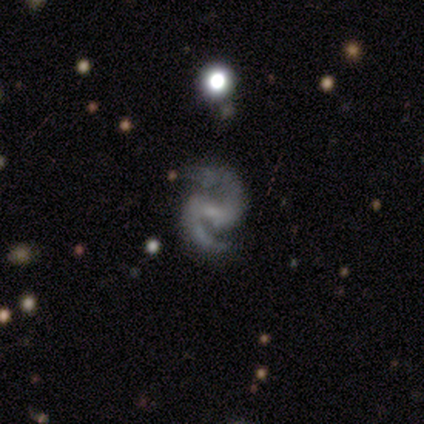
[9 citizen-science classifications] A featured or disk galaxy (100%) with a weak bar (67%), 2 (89%) medium (89%) spiral arms (100%) and a small central bulge (67%).

Vote fractions:
- Smooth or featured? featured or disk: 100% / smooth: 0% / star or artifact: 0%
- Edge-on disk? no: 100% / yes: 0%
- Bar? weak: 67% / strong: 22% / no: 11%
- Spiral arms? yes: 100% / no: 0%
- Spiral winding? medium: 89% / tight: 11% / loose: 0%
- Spiral arm count? 2: 89% / 1: 11% / 3: 0% / 4: 0% / more than 4: 0% / can't tell: 0%
- Bulge size? small: 67% / none: 22% / moderate: 11% / dominant: 0% / large: 0%
- Merging? none: 67% / minor disturbance: 33% / major disturbance: 0% / merger: 0%